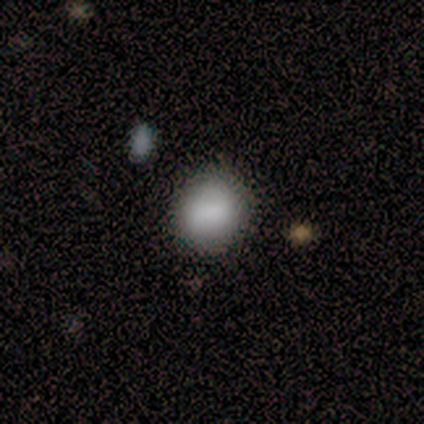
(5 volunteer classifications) Volunteers were most divided on "smooth or featured": smooth: 80%, featured or disk: 20%, star or artifact: 0%. More confident: how rounded — round (100%); merging — none (80%).